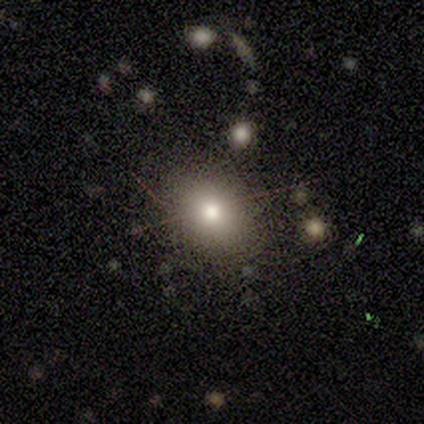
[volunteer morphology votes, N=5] type=smooth (80%); roundness=round (50%, tied with in between); merging=none (80%).